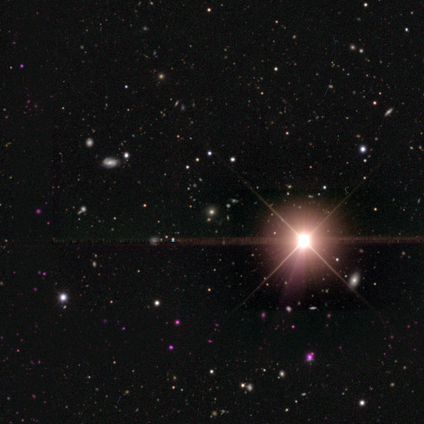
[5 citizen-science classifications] Smooth or featured: star or artifact — 60% (smooth — 40%)